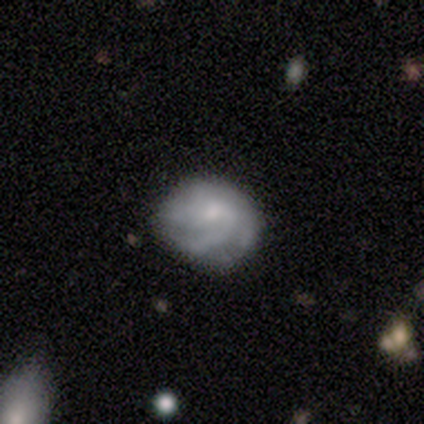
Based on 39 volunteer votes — Volunteers were most divided on "spiral winding": medium: 43%, tight: 39%, loose: 18%. Remaining: edge-on disk — no (97%); spiral arms — yes (88%); smooth or featured — featured or disk (85%); bar — no (72%); bulge size — small (62%); merging — none (46%); spiral arm count — 3 (32%).